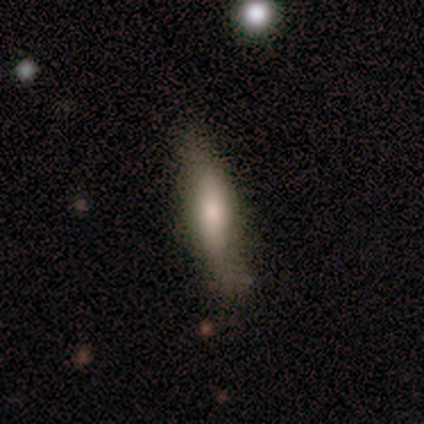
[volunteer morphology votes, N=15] smooth_or_featured: smooth (p=0.67) [alt: featured or disk p=0.27]
how_rounded: in between (p=0.70) [alt: cigar-shaped p=0.30]
merging: none (p=0.57) [alt: minor disturbance p=0.29]